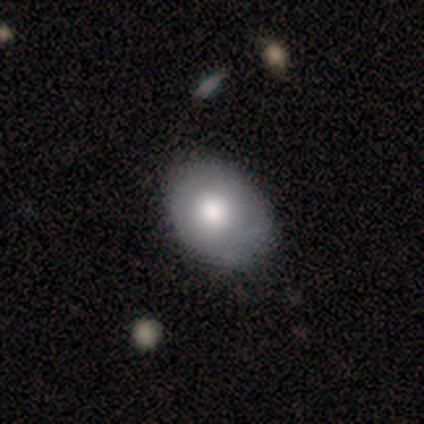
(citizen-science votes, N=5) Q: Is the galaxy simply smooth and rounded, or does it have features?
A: smooth — 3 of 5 (60%).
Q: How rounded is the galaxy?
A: in between — 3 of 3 (100%).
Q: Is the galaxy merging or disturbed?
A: none — 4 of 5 (80%).